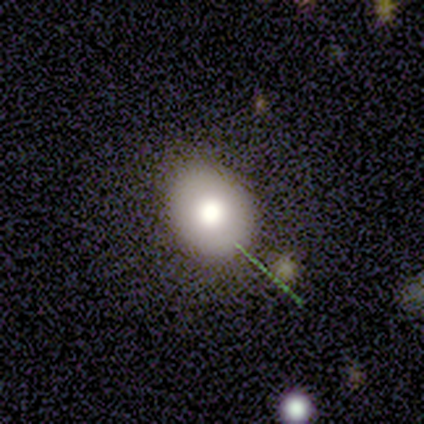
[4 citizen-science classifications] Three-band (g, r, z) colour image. It shows a smooth galaxy with no disk features (50%, tied with featured or disk) that is in between round and cigar-shaped (100%). Merging: none (50%).